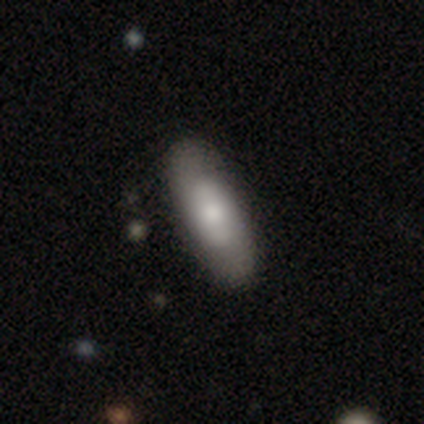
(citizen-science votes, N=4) Overall: featured or disk (75%). Edge-on disk: no (100%). Bar: weak (67%; no 33%). Spiral arms: no (100%). Bulge size: moderate (67%; small 33%). Merging: none (75%).